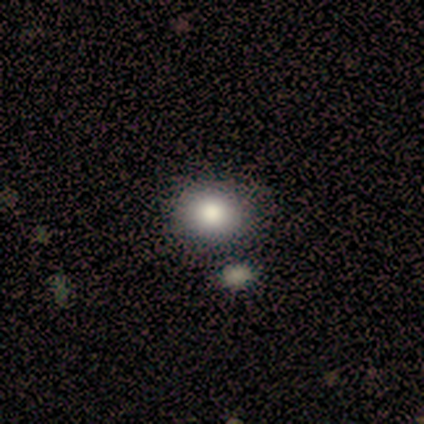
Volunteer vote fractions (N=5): Morphology: type=smooth (100%); roundness=round (60%); merging=none (60%).